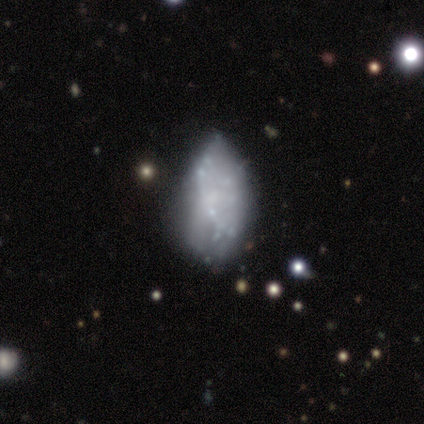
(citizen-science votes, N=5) Smooth or featured?
  - featured or disk: 60% *
  - smooth: 20%
  - star or artifact: 20%
Edge-on disk?
  - no: 100% *
  - yes: 0%
Bar?
  - no: 100% *
  - strong: 0%
  - weak: 0%
Spiral arms?
  - no: 100% *
  - yes: 0%
Bulge size?
  - none: 100% *
  - dominant: 0%
  - large: 0%
  - moderate: 0%
  - small: 0%
Merging?
  - none: 50% * (tied)
  - minor disturbance: 50% * (tied)
  - major disturbance: 0%
  - merger: 0%